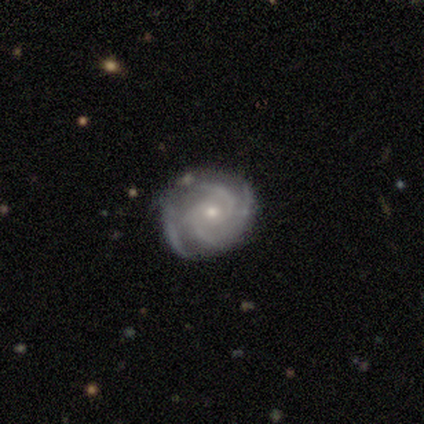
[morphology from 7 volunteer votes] Volunteers were most divided on "spiral arm count": 2: 43%, 4: 29%, 3: 14%, can't tell: 14%, 1: 0%, more than 4: 0%. More confident: smooth or featured — featured or disk (100%); edge-on disk — no (100%); spiral arms — yes (100%); spiral winding — tight (86%); bulge size — small (86%); merging — none (71%); bar — weak (57%).